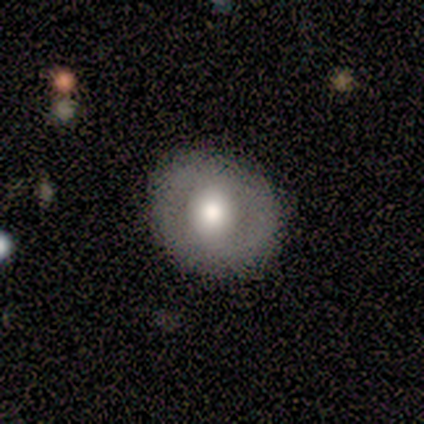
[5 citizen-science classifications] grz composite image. It shows a smooth galaxy with no disk features (60%) that is round (100%). Merging: none (80%).